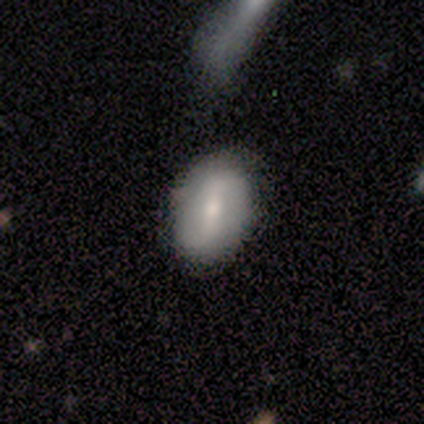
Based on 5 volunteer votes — Overall: featured or disk (80%). Edge-on disk: no (100%). Bar: strong (50%, tied with weak). Spiral arms: no (75%). Bulge size: small (75%). Merging: none (100%).